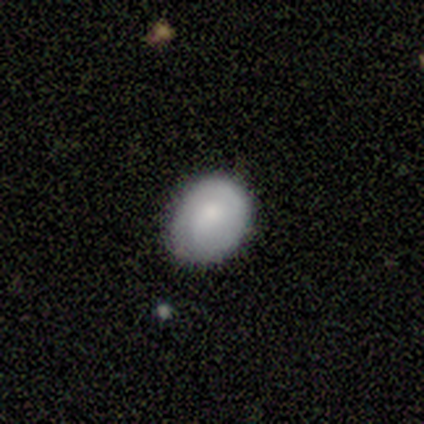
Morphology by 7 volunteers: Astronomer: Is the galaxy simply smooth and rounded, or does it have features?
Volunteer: smooth — 86%.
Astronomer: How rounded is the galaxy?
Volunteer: round — 67%.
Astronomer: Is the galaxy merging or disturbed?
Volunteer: none — 71%.